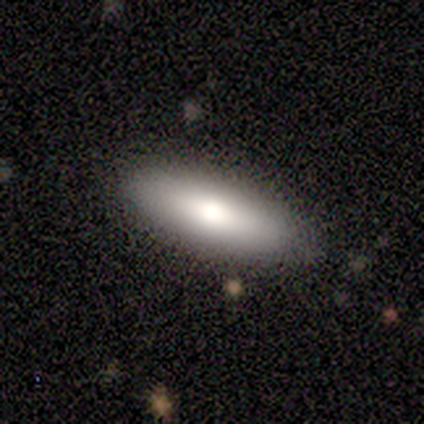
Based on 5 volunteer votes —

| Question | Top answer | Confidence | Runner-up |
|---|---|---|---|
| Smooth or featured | smooth | 60% | featured or disk (40%) |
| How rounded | cigar-shaped | 67% | in between (33%) |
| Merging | none | 100% | — |